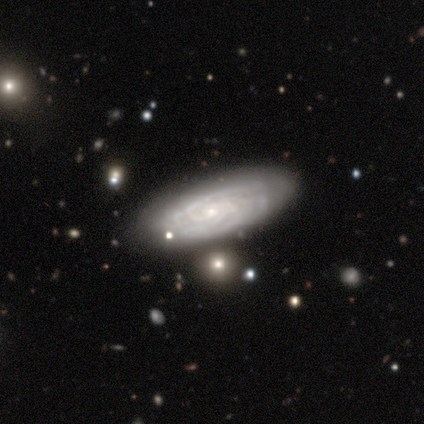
Smooth or featured: featured or disk — 100%
Edge-on disk: no — 80% (yes — 20%)
Bar: no — 75% (strong — 25%)
Spiral arms: yes — 100%
Spiral winding: tight — 75% (medium — 25%)
Spiral arm count: can't tell — 75% (2 — 25%)
Bulge size: moderate — 50% (tied with small — 50%)
Merging: none — 100%